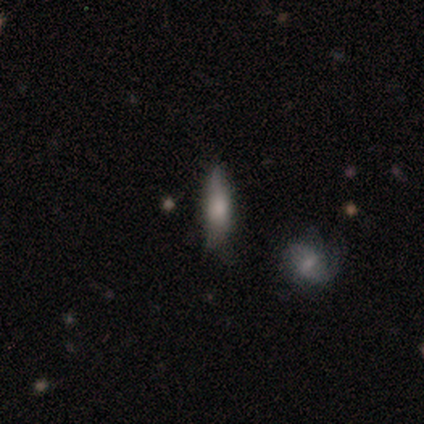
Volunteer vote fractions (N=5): Overall: smooth (100%). How rounded: cigar-shaped (100%). Merging: none (60%; minor disturbance 40%).